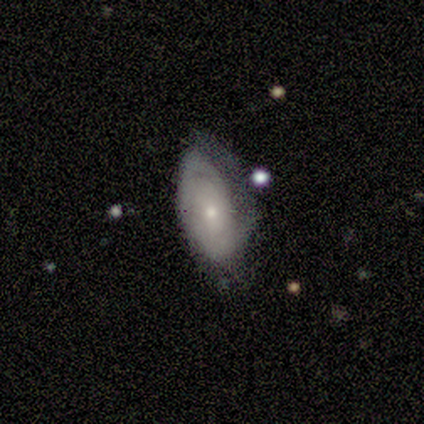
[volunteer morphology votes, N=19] This appears to be a featured or disk galaxy (58%) with no bar (64%), no spiral arms (64%) and a small central bulge (82%). Merging: none (41%).